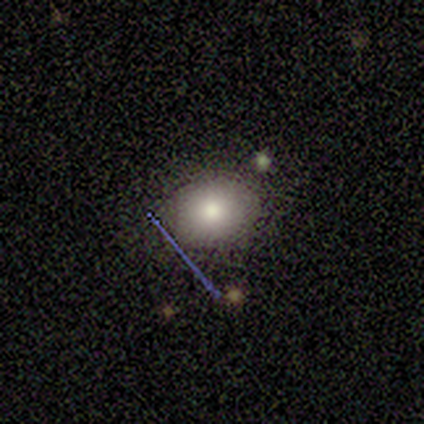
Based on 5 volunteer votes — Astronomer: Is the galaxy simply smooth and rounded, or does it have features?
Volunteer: smooth — 100%.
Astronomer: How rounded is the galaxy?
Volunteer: round — 60% (runner-up: in between, 40%).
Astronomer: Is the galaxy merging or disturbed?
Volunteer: none — 80%.